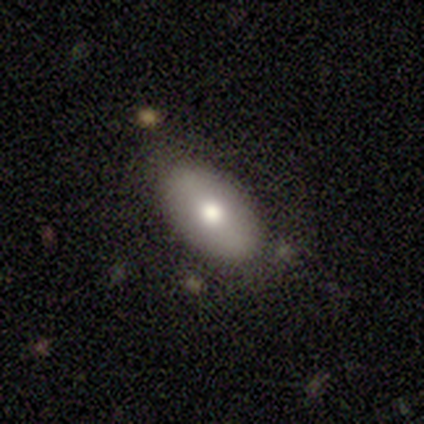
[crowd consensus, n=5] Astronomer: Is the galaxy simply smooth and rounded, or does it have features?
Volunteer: smooth — 80%.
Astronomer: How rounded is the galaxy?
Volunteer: in between — 100%.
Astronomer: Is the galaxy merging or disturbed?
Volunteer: none — 80%.